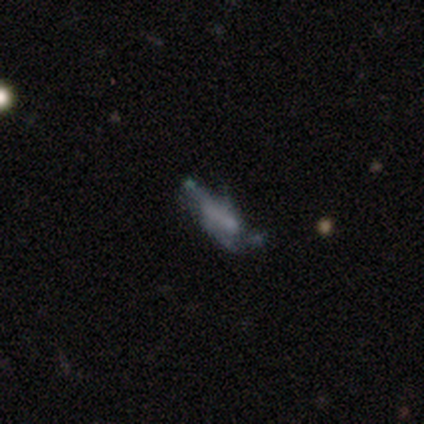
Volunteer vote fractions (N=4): smooth-or-featured: featured or disk: 75% | smooth: 25% | star or artifact: 0%
  disk-edge-on: no: 100% | yes: 0%
    bar: no: 100% | strong: 0% | weak: 0%
    has-spiral-arms: no: 67% | yes: 33%
    bulge-size: none: 100% | dominant: 0% | large: 0% | moderate: 0% | small: 0%
  merging: major disturbance: 50% | none: 25% | minor disturbance: 25% | merger: 0%